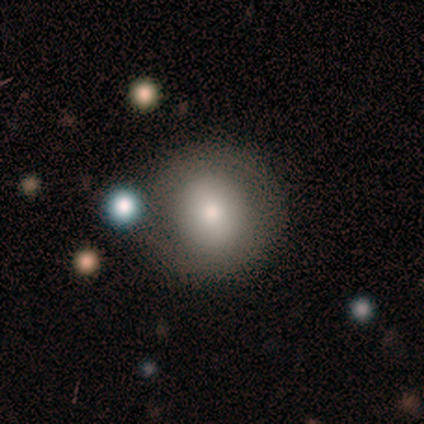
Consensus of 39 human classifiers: Smooth or featured?
  - smooth: 79% *
  - featured or disk: 10%
  - star or artifact: 10%
How rounded?
  - round: 87% *
  - in between: 13%
  - cigar-shaped: 0%
Merging?
  - none: 74% *
  - minor disturbance: 20%
  - merger: 6%
  - major disturbance: 0%